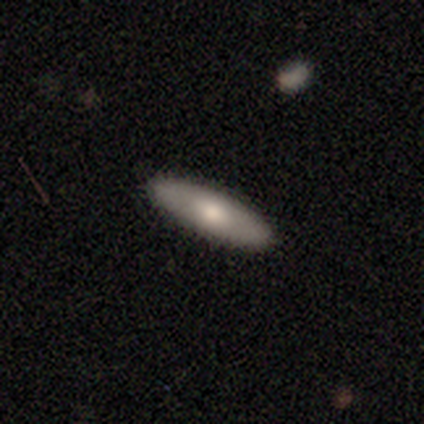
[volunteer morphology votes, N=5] smooth_or_featured: smooth (p=0.60) [alt: featured or disk p=0.40]
how_rounded: cigar-shaped (p=0.67) [alt: in between p=0.33]
merging: none (p=0.80) [alt: minor disturbance p=0.20]